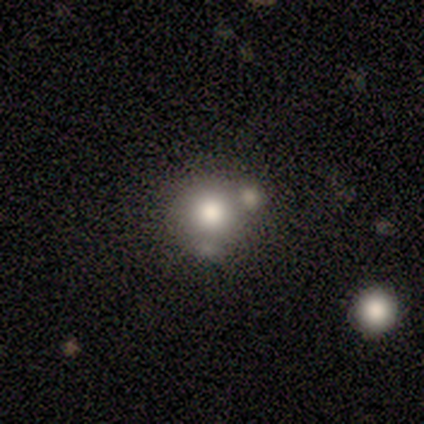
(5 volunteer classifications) Overall: smooth (80%). How rounded: round (100%). Merging: none (50%, tied with merger).